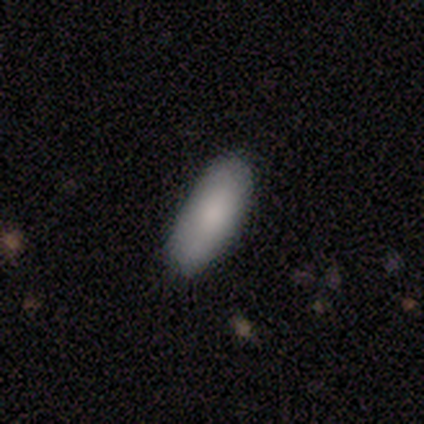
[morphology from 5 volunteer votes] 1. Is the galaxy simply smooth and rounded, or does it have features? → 100% smooth, 0% featured or disk, 0% star or artifact.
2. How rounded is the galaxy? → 80% in between, 20% cigar-shaped, 0% round.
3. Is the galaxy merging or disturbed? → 60% none, 40% minor disturbance, 0% major disturbance, 0% merger.